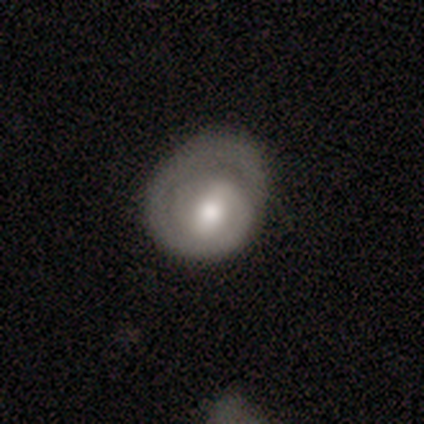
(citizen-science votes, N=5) Volunteers were most divided on "spiral arm count" (2-way tie): 1: 50%, can't tell: 50%, 2: 0%, 3: 0%, 4: 0%, more than 4: 0%; "bulge size" (3-way tie): large: 33%, moderate: 33%, none: 33%, dominant: 0%, small: 0%. More confident: edge-on disk — no (100%); bar — weak (100%); spiral winding — medium (100%); spiral arms — yes (67%); smooth or featured — featured or disk (60%); merging — none (60%).